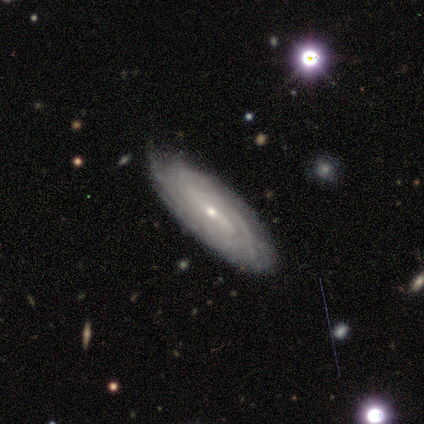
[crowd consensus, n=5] Q: Smooth or featured?
A: featured or disk (100%)
Q: Edge-on disk?
A: no (80%); runner-up: yes (20%)
Q: Bar?
A: no (50%); runner-up: strong (25%)
Q: Spiral arms?
A: yes (100%)
Q: Spiral winding?
A: tight (100%)
Q: Spiral arm count?
A: can't tell (75%); runner-up: 2 (25%)
Q: Bulge size?
A: small (100%)
Q: Merging?
A: none (100%)